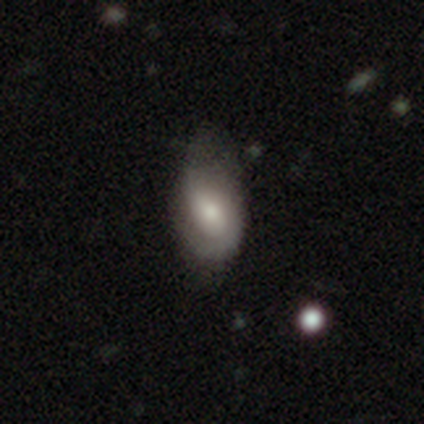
Morphology: type=smooth (60%); roundness=in between (100%); merging=minor disturbance (60%).